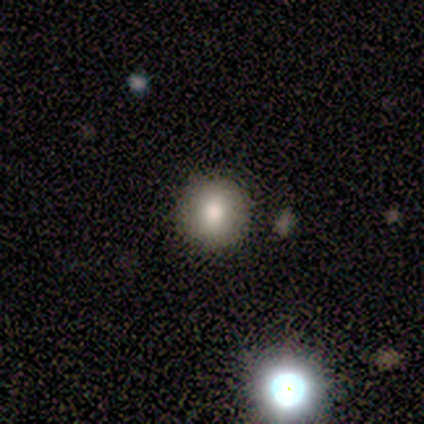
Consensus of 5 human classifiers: Q: Smooth or featured?
A: smooth (80%); runner-up: featured or disk (20%)
Q: How rounded?
A: round (100%)
Q: Merging?
A: none (100%)